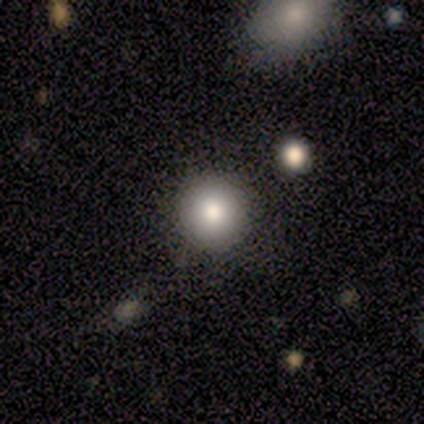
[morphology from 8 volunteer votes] Q: Smooth or featured?
A: smooth (88%); runner-up: featured or disk (12%)
Q: How rounded?
A: round (100%)
Q: Merging?
A: none (75%); runner-up: minor disturbance (25%)